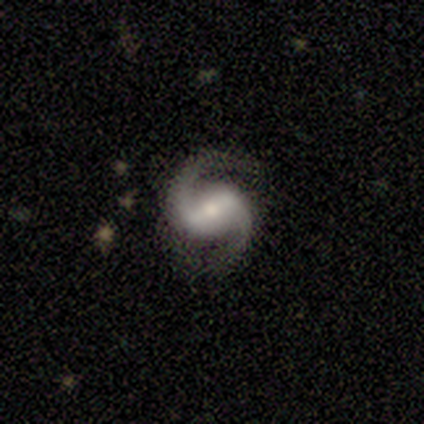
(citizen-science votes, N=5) smooth-or-featured: featured or disk: 100% | smooth: 0% | star or artifact: 0%
  disk-edge-on: no: 80% | yes: 20%
    bar: strong: 75% | no: 25% | weak: 0%
    has-spiral-arms: yes: 100% | no: 0%
      spiral-winding: medium: 50% | tight: 25% | loose: 25%
      spiral-arm-count: 2: 100% | 1: 0% | 3: 0% | 4: 0% | more than 4: 0% | can't tell: 0%
    bulge-size: moderate: 50% (tied) | small: 50% (tied) | dominant: 0% | large: 0% | none: 0%
  merging: none: 60% | minor disturbance: 20% | major disturbance: 20% | merger: 0%